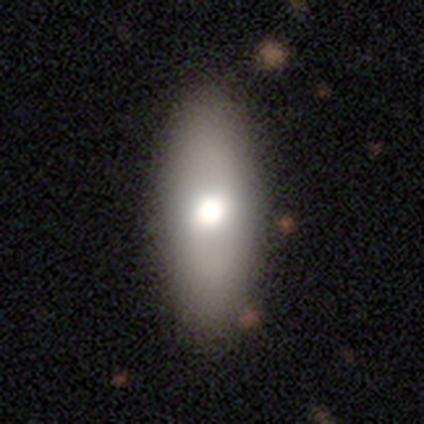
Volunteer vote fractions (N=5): Volunteers were most divided on "how rounded": cigar-shaped: 50%, round: 25%, in between: 25%. More confident: smooth or featured — smooth (80%); merging — none (80%).